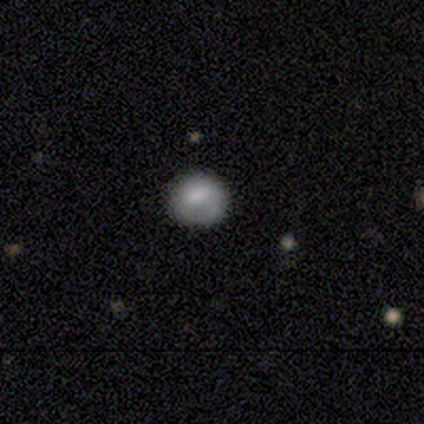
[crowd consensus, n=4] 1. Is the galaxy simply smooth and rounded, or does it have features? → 75% smooth, 25% featured or disk, 0% star or artifact.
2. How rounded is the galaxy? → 67% round, 33% in between, 0% cigar-shaped.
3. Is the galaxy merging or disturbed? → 75% none, 25% minor disturbance, 0% major disturbance, 0% merger.